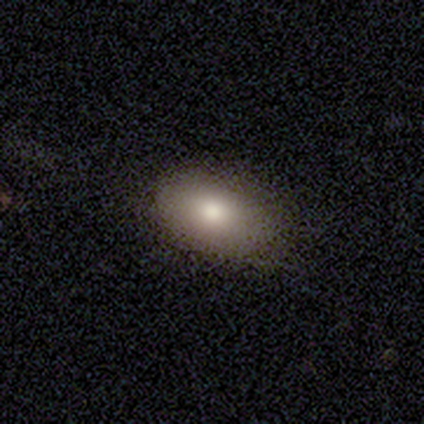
Overall: smooth (80%). How rounded: in between (100%). Merging: none (80%).